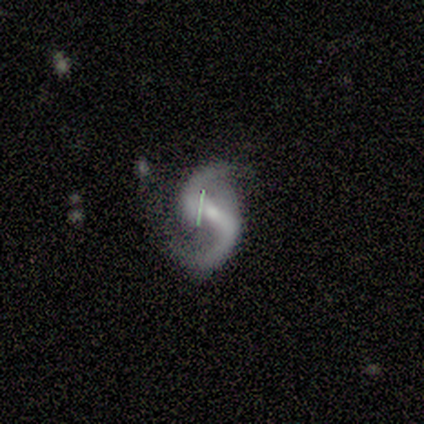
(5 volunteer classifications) Smooth or featured? featured or disk (100%)
Edge-on disk? no (100%)
Bar? strong (60%)
Spiral arms? yes (100%)
Spiral winding? loose (60%)
Spiral arm count? 2 (100%)
Bulge size? small (80%)
Merging? none (80%)